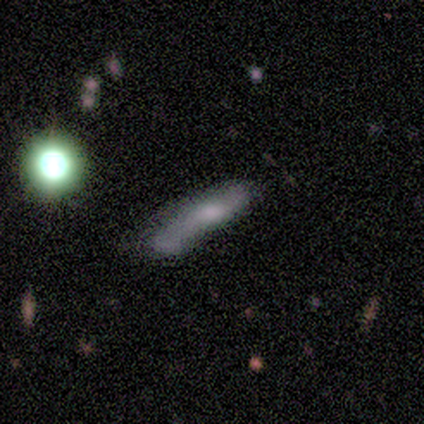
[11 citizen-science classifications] A smooth galaxy with no disk features (64%) that is cigar-shaped (100%). Merging: major disturbance (36%).